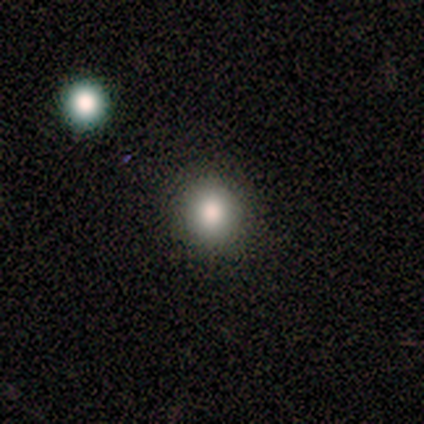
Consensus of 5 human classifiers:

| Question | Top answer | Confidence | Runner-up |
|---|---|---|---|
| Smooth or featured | smooth | 100% | — |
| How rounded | round | 80% | in between (20%) |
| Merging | none | 100% | — |